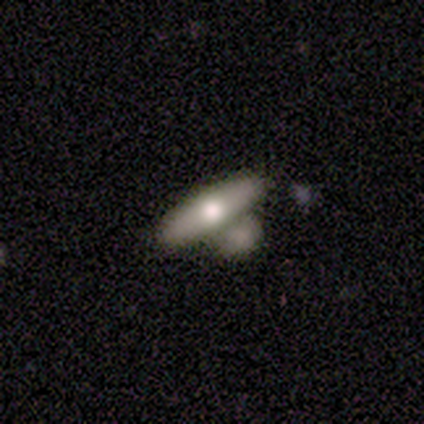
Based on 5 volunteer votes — Smooth or featured? 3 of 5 (60%) said featured or disk. Edge-on disk? 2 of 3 (67%) said yes. Edge-on bulge? 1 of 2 (50%, tied with rounded) said none. Merging? 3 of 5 (60%) said none.